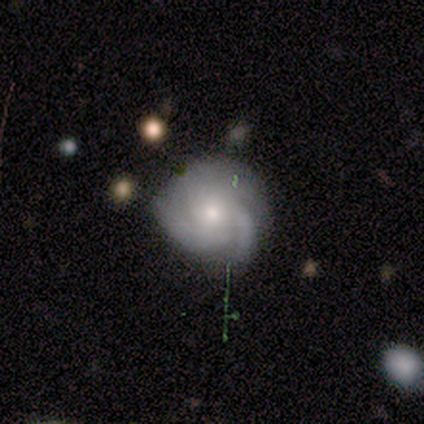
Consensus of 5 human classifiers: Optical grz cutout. It shows a featured or disk galaxy (80%) with no bar (75%), 2 (25%, tied with 3, 4 and can't tell) tight (100%) spiral arms (100%) and a small central bulge (100%). Merging: none (100%).